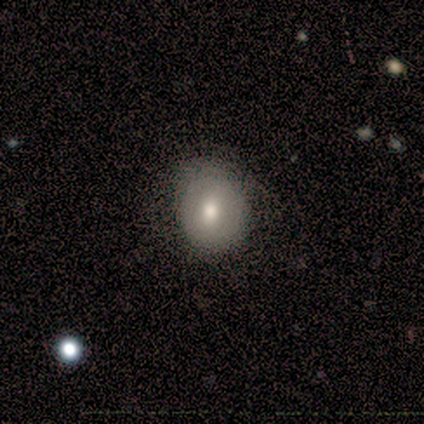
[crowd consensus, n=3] smooth_or_featured: featured or disk (p=0.67) [alt: smooth p=0.33]
disk_edge_on: no (p=1.00)
bar: no (p=1.00)
has_spiral_arms: no (p=1.00)
bulge_size: moderate (p=0.50) [tied with: small p=0.50]
merging: none (p=1.00)